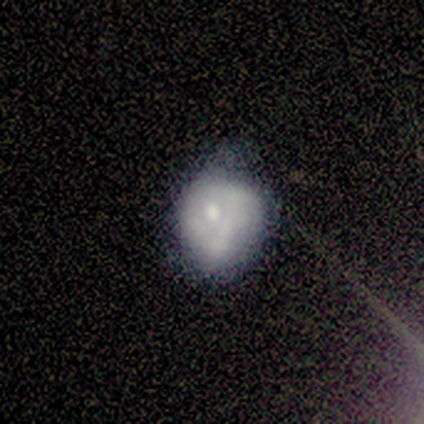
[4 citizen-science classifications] Smooth or featured? smooth (50%)
How rounded? in between (100%)
Merging? none (33%, tied with minor disturbance and major disturbance)